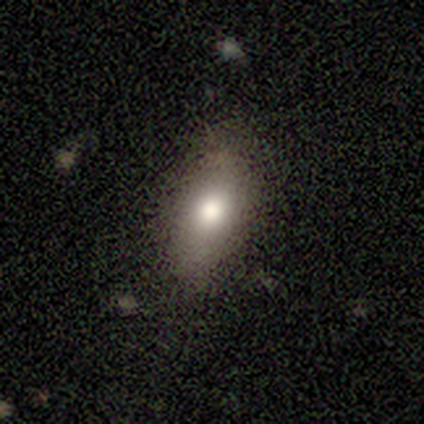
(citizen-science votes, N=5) This appears to be a smooth galaxy with no disk features (100%) that is in between round and cigar-shaped (100%). Merging: none (80%).